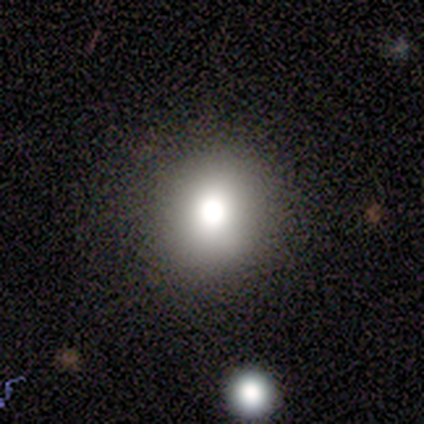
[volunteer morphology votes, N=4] smooth-or-featured: smooth: 100% | featured or disk: 0% | star or artifact: 0%
  how-rounded: round: 100% | in between: 0% | cigar-shaped: 0%
  merging: none: 100% | minor disturbance: 0% | major disturbance: 0% | merger: 0%